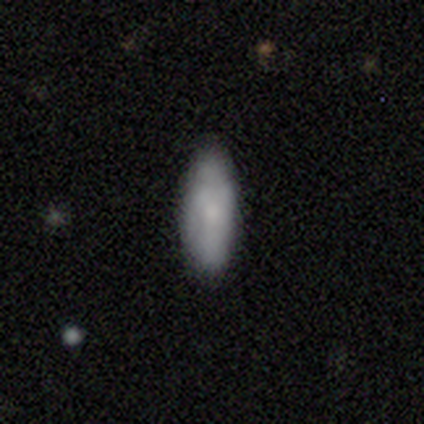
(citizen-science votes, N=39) Morphology: type=smooth (72%); roundness=in between (54%); merging=none (84%).